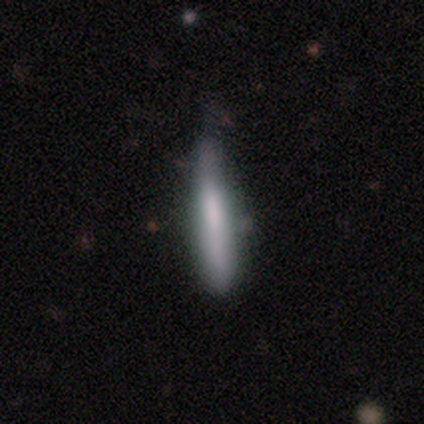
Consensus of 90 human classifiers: A smooth galaxy with no disk features (63%) that is cigar-shaped (98%). Merging: none (64%).